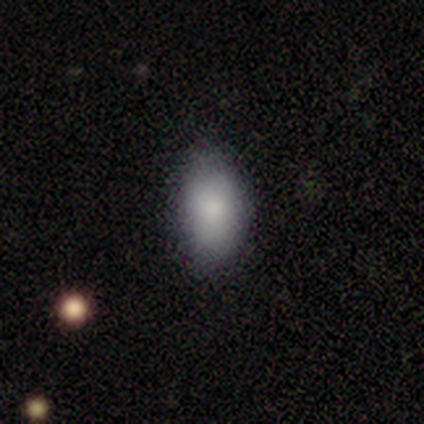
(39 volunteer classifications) Smooth or featured? smooth (87%)
How rounded? in between (97%)
Merging? none (72%)